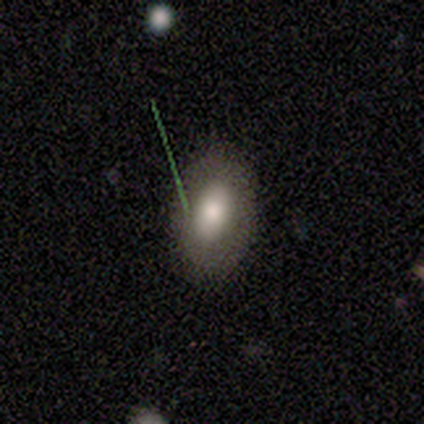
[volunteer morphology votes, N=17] Smooth or featured? smooth (76%)
How rounded? in between (92%)
Merging? none (88%)